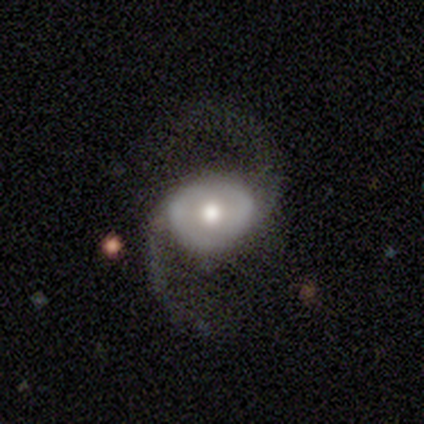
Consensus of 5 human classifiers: Smooth or featured? featured or disk (80%)
Edge-on disk? no (100%)
Bar? no (100%)
Spiral arms? yes (100%)
Spiral winding? medium (50%, tied with loose)
Spiral arm count? 2 (100%)
Bulge size? moderate (75%)
Merging? none (100%)